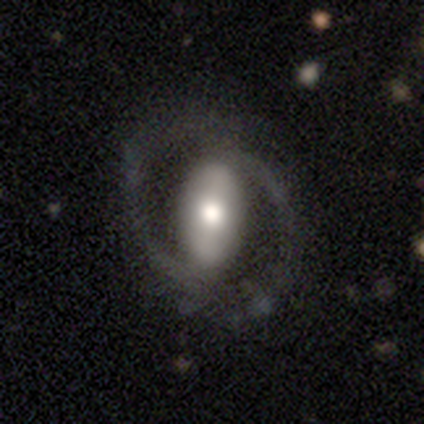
Smooth or featured: featured or disk — 82% (smooth — 18%)
Edge-on disk: no — 88% (yes — 12%)
Bar: strong — 68% (no — 25%)
Spiral arms: yes — 71% (no — 29%)
Spiral winding: tight — 40% (medium — 35%)
Spiral arm count: 2 — 90% (3 — 5%)
Bulge size: moderate — 50% (large — 29%)
Merging: none — 72% (minor disturbance — 21%)